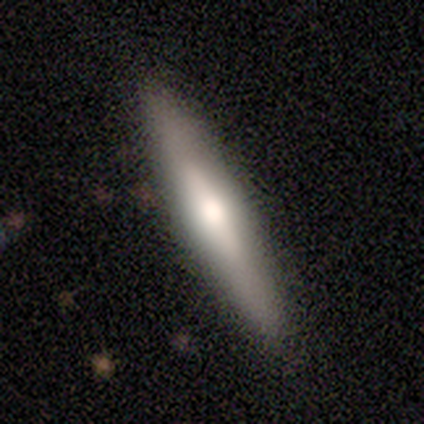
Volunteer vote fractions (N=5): Overall: featured or disk (80%). Edge-on disk: yes (100%). Edge-on bulge: rounded (100%). Merging: none (80%).